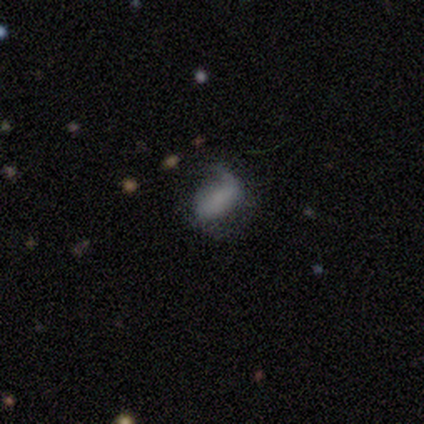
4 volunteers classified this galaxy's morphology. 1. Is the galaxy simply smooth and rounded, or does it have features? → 75% smooth, 25% featured or disk, 0% star or artifact.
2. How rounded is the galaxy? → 67% in between, 33% round, 0% cigar-shaped.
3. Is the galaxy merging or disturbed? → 50% none (tied), 50% major disturbance (tied), 0% minor disturbance, 0% merger.